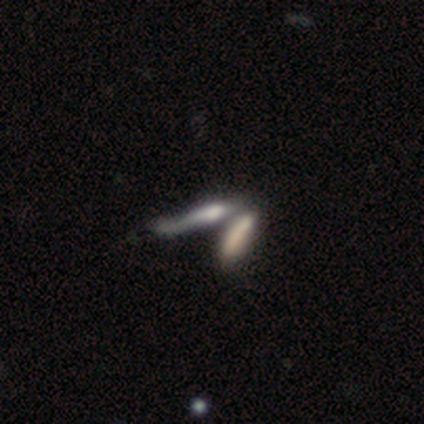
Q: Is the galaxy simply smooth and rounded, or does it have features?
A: smooth — 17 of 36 (47%).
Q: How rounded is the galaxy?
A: cigar-shaped — 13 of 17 (76%).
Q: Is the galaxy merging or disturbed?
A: merger — 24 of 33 (73%).